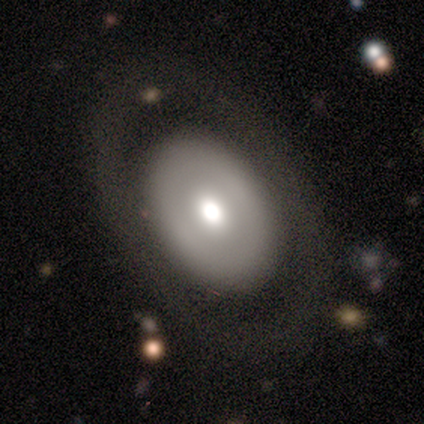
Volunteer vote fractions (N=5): This is likely a featured or disk galaxy (60%). It is clearly not viewed edge-on (100%). Bar: clearly no (100%). Spiral arm pattern: likely no (67%). Central bulge: clearly moderate (100%). Merging: clearly none (80%).